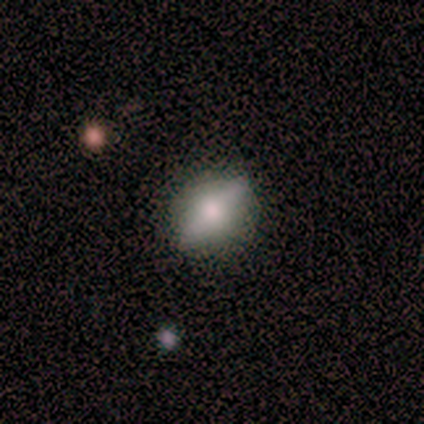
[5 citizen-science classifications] Volunteers were most divided on "merging": none: 60%, minor disturbance: 40%, major disturbance: 0%, merger: 0%. More confident: smooth or featured — smooth (80%); how rounded — in between (75%).